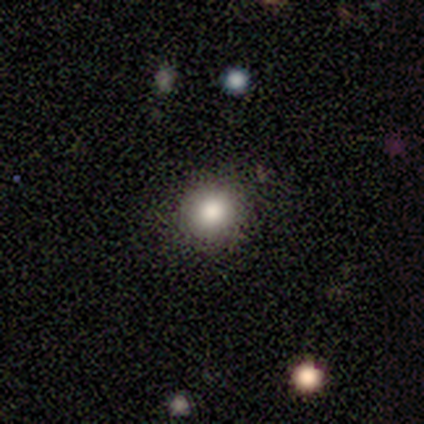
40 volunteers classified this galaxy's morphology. Volunteers were most divided on "smooth or featured": smooth: 78%, featured or disk: 12%, star or artifact: 10%. More confident: how rounded — round (97%); merging — none (89%).